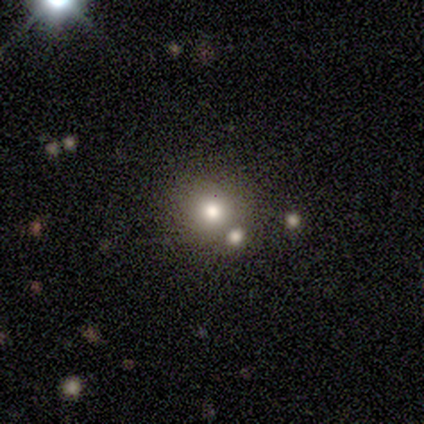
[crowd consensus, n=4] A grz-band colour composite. It shows a smooth galaxy with no disk features (50%, tied with star or artifact) that is round (100%). Merging: none (100%).